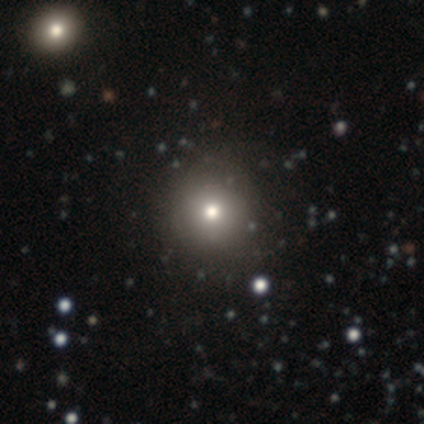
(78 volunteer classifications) Morphology: type=smooth (79%); roundness=round (89%); merging=none (41%).